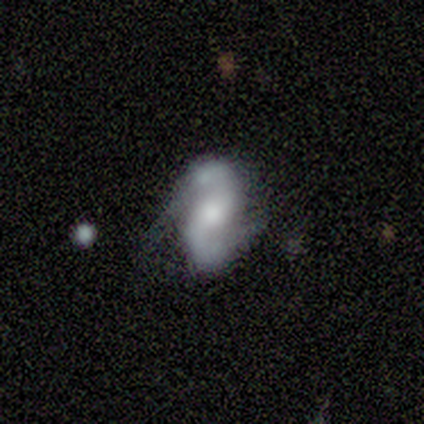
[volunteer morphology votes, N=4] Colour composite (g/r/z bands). It shows a featured or disk galaxy (100%) with no bar (75%), 2 (100%) medium (75%) spiral arms (100%) and a small central bulge (50%). Merging: none (50%, tied with minor disturbance).